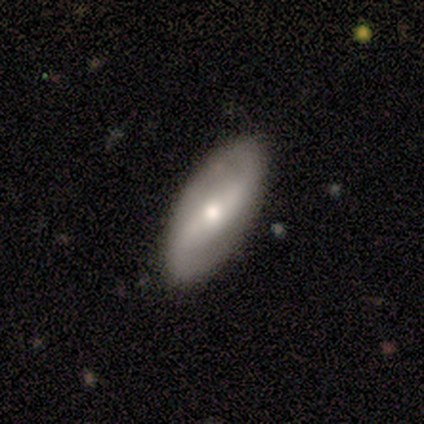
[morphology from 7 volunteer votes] This appears to be a featured or disk galaxy (71%) with a strong bar (100%), 2 (100%) loose (80%) spiral arms (100%) and a moderate central bulge (80%). Merging: none (100%).